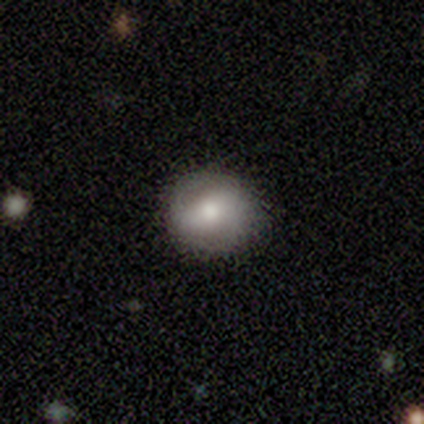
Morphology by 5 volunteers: featured or disk 60%, smooth 40%, star or artifact 0%. Down the decision tree: edge-on disk — no (100%); bar — strong (33%, tied with weak and no); spiral arms — no (67%); bulge size — moderate (67%); merging — none (100%).